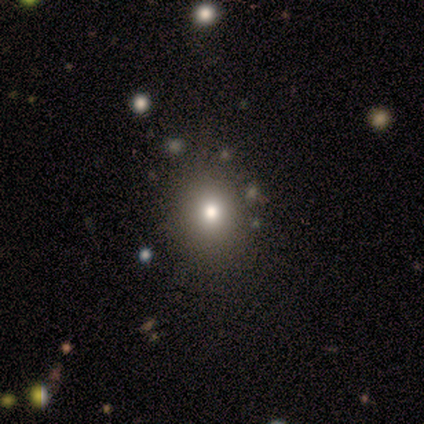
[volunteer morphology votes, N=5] Overall: smooth (80%). How rounded: round (75%). Merging: none (100%).